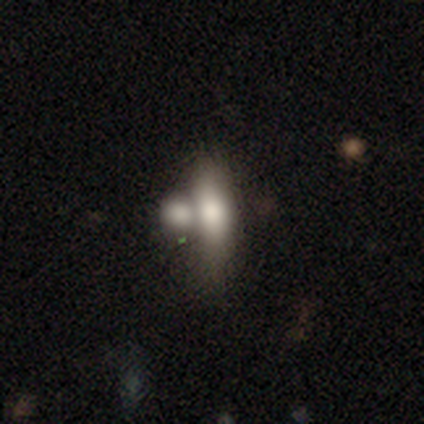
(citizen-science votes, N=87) Smooth or featured? smooth (63%)
How rounded? in between (65%)
Merging? merger (64%)